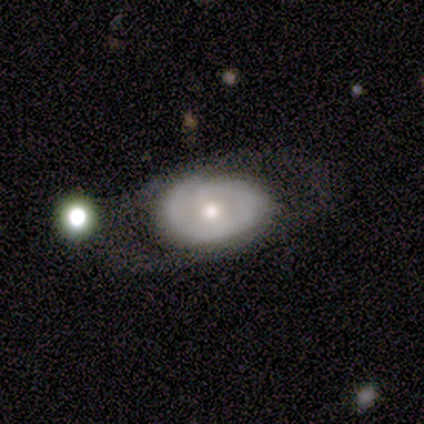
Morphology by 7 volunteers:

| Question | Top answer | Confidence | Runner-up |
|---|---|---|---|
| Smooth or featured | featured or disk | 86% | smooth (14%) |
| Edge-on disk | no | 83% | yes (17%) |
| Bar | no | 100% | — |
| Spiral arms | no | 80% | yes (20%) |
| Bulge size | moderate | 60% | small (40%) |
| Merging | minor disturbance | 43% | none (29%) |